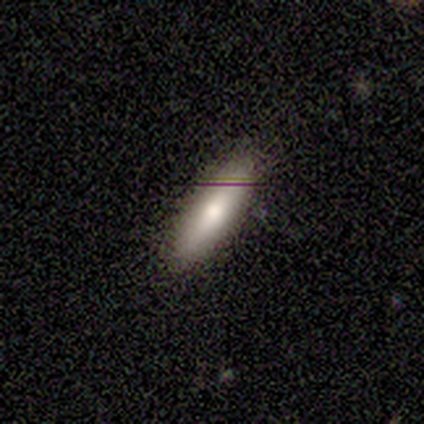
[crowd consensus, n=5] A smooth galaxy with no disk features (60%) that is cigar-shaped (100%).

Vote fractions:
- Smooth or featured? smooth: 60% / featured or disk: 20% / star or artifact: 20%
- How rounded? cigar-shaped: 100% / round: 0% / in between: 0%
- Merging? none: 75% / minor disturbance: 25% / major disturbance: 0% / merger: 0%